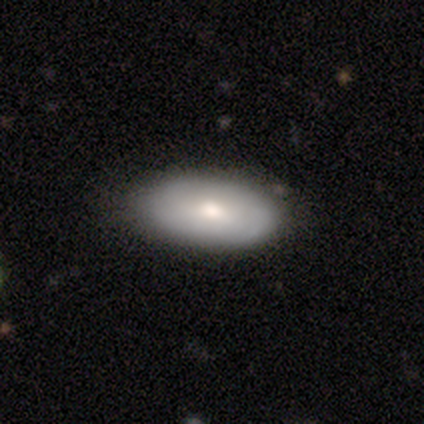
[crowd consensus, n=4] A featured or disk galaxy (75%) with no bar (100%), no spiral arms (100%) and a moderate central bulge (50%, tied with small).

Vote fractions:
- Smooth or featured? featured or disk: 75% / smooth: 25% / star or artifact: 0%
- Edge-on disk? no: 67% / yes: 33%
- Bar? no: 100% / strong: 0% / weak: 0%
- Spiral arms? no: 100% / yes: 0%
- Bulge size? moderate: 50% (tied) / small: 50% (tied) / dominant: 0% / large: 0% / none: 0%
- Merging? none: 75% / minor disturbance: 25% / major disturbance: 0% / merger: 0%